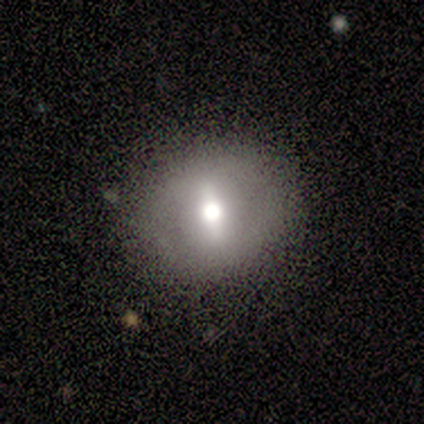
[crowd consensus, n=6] Smooth or featured?
  - smooth: 50% * (tied)
  - featured or disk: 50% * (tied)
  - star or artifact: 0%
How rounded?
  - round: 67% *
  - in between: 33%
  - cigar-shaped: 0%
Merging?
  - none: 100% *
  - minor disturbance: 0%
  - major disturbance: 0%
  - merger: 0%